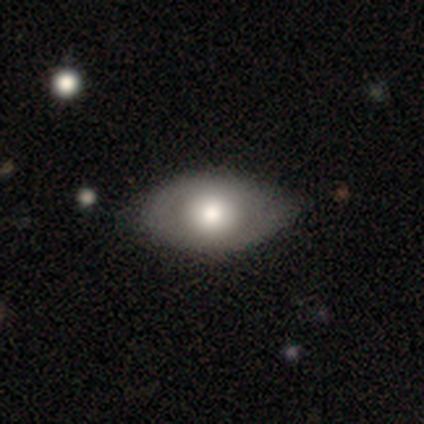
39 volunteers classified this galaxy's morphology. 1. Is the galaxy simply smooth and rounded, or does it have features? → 64% smooth, 28% featured or disk, 8% star or artifact.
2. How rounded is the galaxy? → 92% in between, 8% round, 0% cigar-shaped.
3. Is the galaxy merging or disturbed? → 42% none, 31% minor disturbance, 3% major disturbance, 3% merger.